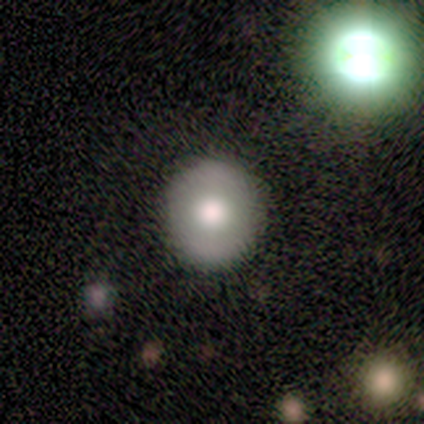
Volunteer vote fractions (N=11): This appears to be a smooth galaxy with no disk features (55%) that is round (100%). Merging: none (100%).